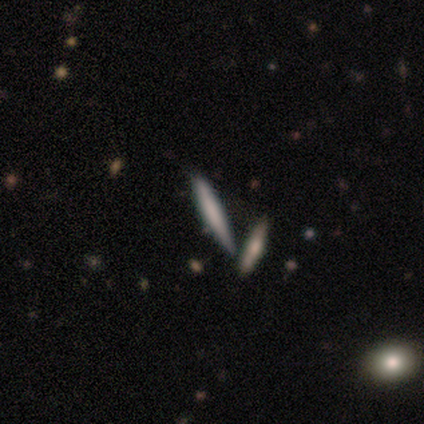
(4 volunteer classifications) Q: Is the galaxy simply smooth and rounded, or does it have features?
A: smooth — 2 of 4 (50%, tied with featured or disk).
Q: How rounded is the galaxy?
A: cigar-shaped — 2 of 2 (100%).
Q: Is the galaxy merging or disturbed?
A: none — 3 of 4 (75%).